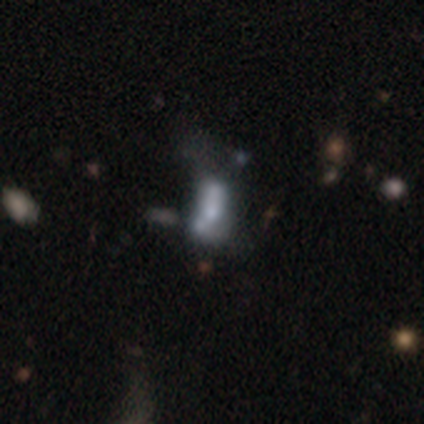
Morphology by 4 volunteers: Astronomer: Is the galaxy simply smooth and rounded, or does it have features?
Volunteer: featured or disk — 75%.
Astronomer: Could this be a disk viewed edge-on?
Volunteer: no — 100%.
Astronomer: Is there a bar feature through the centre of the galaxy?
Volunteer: no — 100%.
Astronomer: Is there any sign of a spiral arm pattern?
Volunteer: no — 100%.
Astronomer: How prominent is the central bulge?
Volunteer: moderate — 33%, tied with small and none at 33%.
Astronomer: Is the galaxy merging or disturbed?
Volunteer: major disturbance — 67%.